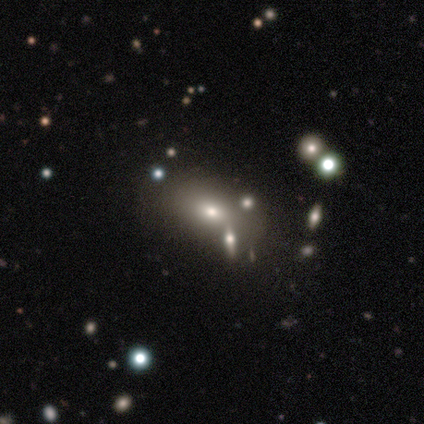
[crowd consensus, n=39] Q: Smooth or featured?
A: smooth (64%); runner-up: featured or disk (23%)
Q: How rounded?
A: in between (96%); runner-up: round (4%)
Q: Merging?
A: none (56%); runner-up: minor disturbance (21%)